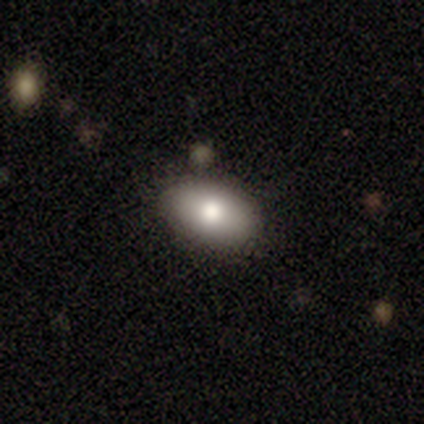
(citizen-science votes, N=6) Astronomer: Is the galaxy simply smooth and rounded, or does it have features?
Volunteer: smooth — 83%.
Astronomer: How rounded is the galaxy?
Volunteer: in between — 100%.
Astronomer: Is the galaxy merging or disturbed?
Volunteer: none — 50% (runner-up: minor disturbance, 33%).